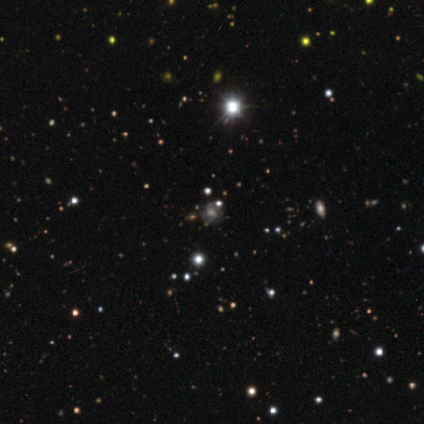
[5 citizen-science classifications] A star or artifact, not a galaxy (100%).

Vote fractions:
- Smooth or featured? star or artifact: 100% / smooth: 0% / featured or disk: 0%